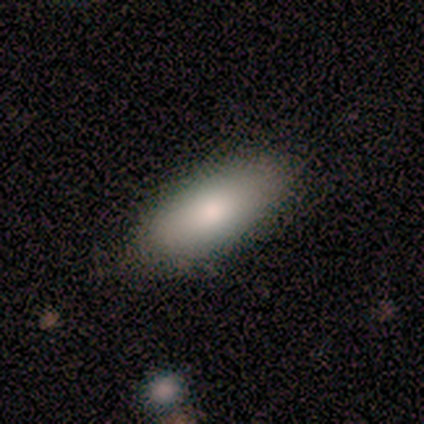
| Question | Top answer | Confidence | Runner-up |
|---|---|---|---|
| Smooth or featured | smooth | 82% | featured or disk (12%) |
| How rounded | in between | 79% | cigar-shaped (21%) |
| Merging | none | 81% | minor disturbance (19%) |